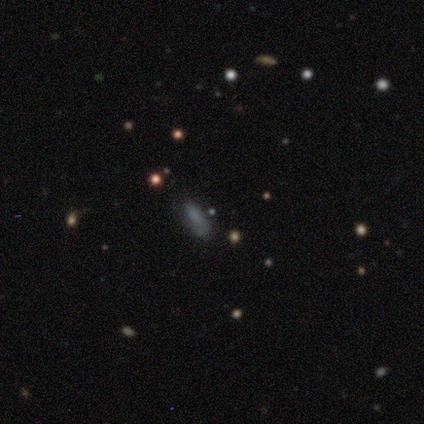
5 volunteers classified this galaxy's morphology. This is clearly a smooth galaxy (80%). How rounded: possibly in between (50%, tied with cigar-shaped). Merging: clearly none (80%).